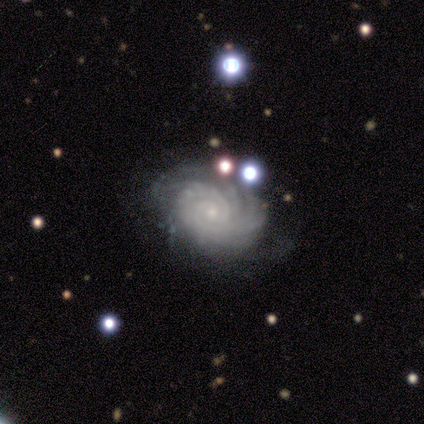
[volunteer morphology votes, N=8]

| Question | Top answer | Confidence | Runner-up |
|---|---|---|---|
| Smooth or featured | featured or disk | 88% | smooth (12%) |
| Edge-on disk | no | 100% | — |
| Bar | no | 100% | — |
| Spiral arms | yes | 100% | — |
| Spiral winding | tight | 86% | medium (14%) |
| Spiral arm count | can't tell | 43% | 3 (29%) |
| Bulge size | small | 71% | moderate (29%) |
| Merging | none | 50% | major disturbance (12%) |